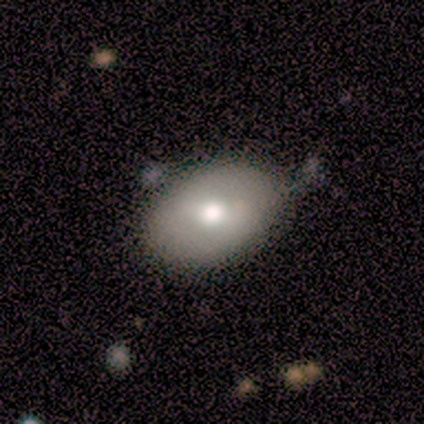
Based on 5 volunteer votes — Smooth or featured?
  - smooth: 80% *
  - featured or disk: 20%
  - star or artifact: 0%
How rounded?
  - in between: 75% *
  - round: 25%
  - cigar-shaped: 0%
Merging?
  - none: 60% *
  - minor disturbance: 40%
  - major disturbance: 0%
  - merger: 0%